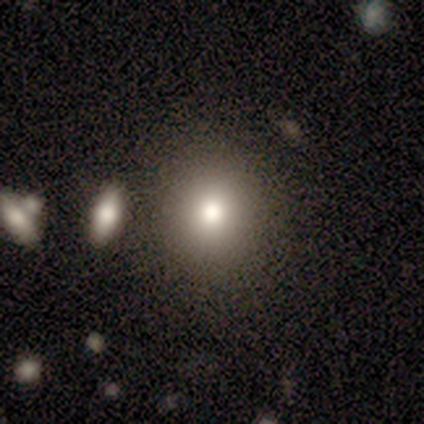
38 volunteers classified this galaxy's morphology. A smooth galaxy with no disk features (79%) that is round (87%).

Vote fractions:
- Smooth or featured? smooth: 79% / featured or disk: 13% / star or artifact: 8%
- How rounded? round: 87% / in between: 13% / cigar-shaped: 0%
- Merging? none: 91% / minor disturbance: 6% / merger: 3% / major disturbance: 0%